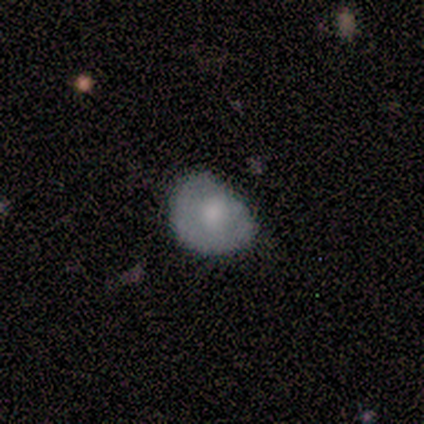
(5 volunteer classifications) Smooth or featured? 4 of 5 (80%) said smooth. How rounded? 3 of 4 (75%) said round. Merging? 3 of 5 (60%) said none.